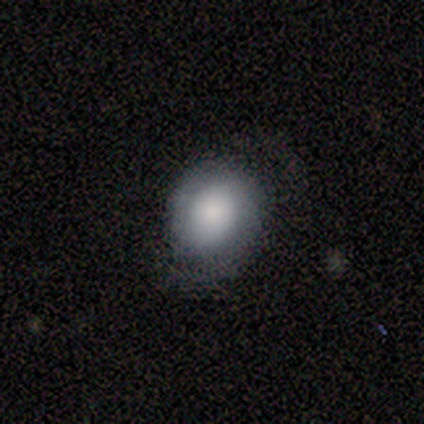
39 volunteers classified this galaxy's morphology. Overall: smooth (69%). How rounded: round (67%; in between 33%). Merging: none (59%; minor disturbance 24%).